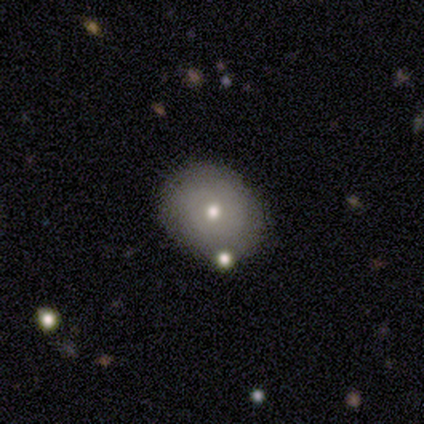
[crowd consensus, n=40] Smooth or featured: smooth — 62% (featured or disk — 28%)
How rounded: round — 80% (in between — 20%)
Merging: none — 78% (minor disturbance — 11%)